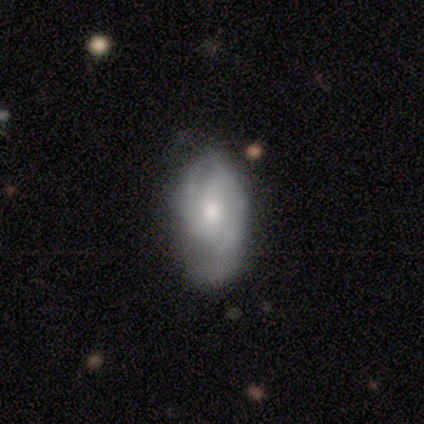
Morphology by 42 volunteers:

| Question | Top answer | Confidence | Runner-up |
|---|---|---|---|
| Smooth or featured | featured or disk | 69% | smooth (21%) |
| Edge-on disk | no | 97% | yes (3%) |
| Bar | no | 46% | weak (39%) |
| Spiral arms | yes | 82% | no (18%) |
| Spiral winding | medium | 52% | tight (30%) |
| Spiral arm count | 2 | 61% | can't tell (17%) |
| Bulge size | moderate | 54% | small (43%) |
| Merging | none | 63% | minor disturbance (21%) |